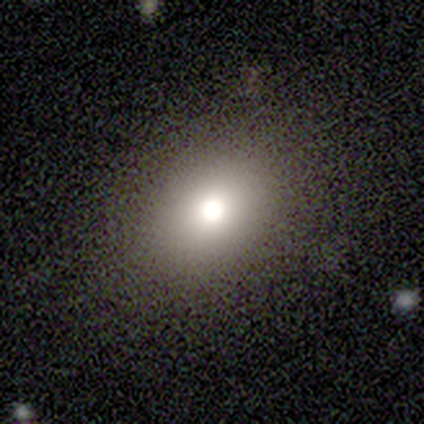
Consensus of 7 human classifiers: smooth 71%, featured or disk 29%, star or artifact 0%. Down the decision tree: how rounded — round (80%); merging — none (86%).